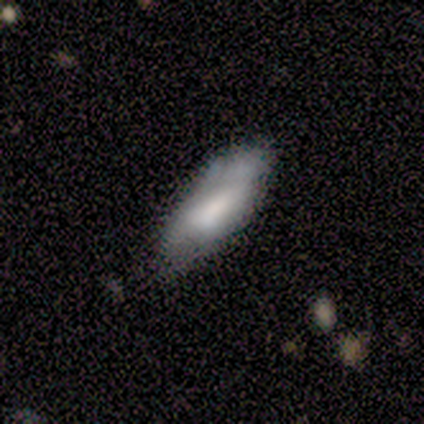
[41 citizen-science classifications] This is likely a smooth galaxy (73%). How rounded: clearly in between (80%). Merging: possibly none (49%).